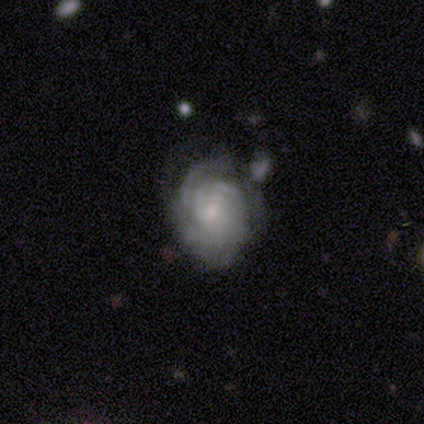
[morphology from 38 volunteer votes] Smooth or featured: featured or disk — 82% (smooth — 13%)
Edge-on disk: no — 97% (yes — 3%)
Bar: no — 63% (weak — 33%)
Spiral arms: yes — 87% (no — 13%)
Spiral winding: tight — 88% (medium — 8%)
Spiral arm count: can't tell — 50% (3 — 27%)
Bulge size: small — 73% (moderate — 13%)
Merging: none — 58% (minor disturbance — 31%)